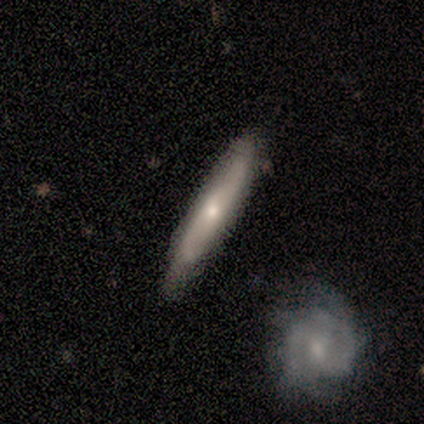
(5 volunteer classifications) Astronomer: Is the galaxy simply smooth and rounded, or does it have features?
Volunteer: featured or disk — 60% (runner-up: smooth, 40%).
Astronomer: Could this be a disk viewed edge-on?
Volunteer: yes — 100%.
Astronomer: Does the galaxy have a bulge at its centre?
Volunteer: rounded — 100%.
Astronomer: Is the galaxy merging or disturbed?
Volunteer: none — 60%.